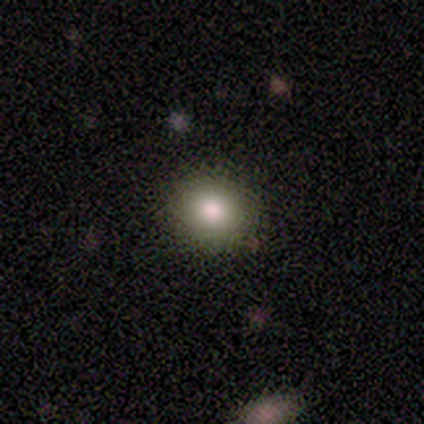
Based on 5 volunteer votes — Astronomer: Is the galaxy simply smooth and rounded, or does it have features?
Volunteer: smooth — 80%.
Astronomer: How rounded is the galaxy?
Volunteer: round — 100%.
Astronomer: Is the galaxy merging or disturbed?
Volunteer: none — 80%.